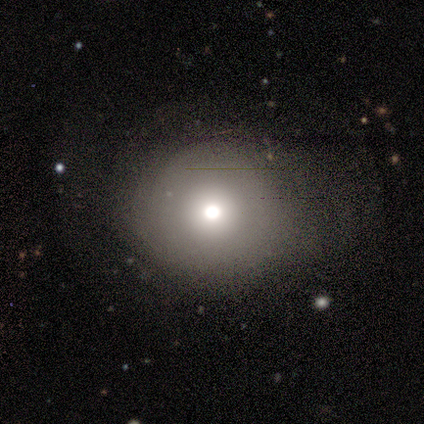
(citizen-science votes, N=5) Smooth or featured? 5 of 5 (100%) said smooth. How rounded? 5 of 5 (100%) said round. Merging? 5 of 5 (100%) said none.